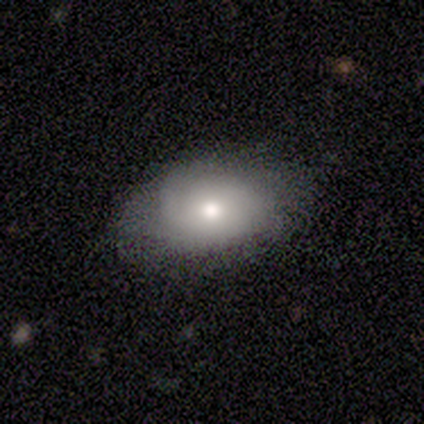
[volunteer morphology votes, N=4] Volunteers were most divided on "merging" (2-way tie): none: 50%, minor disturbance: 50%, major disturbance: 0%, merger: 0%. More confident: how rounded — in between (100%); smooth or featured — smooth (75%).